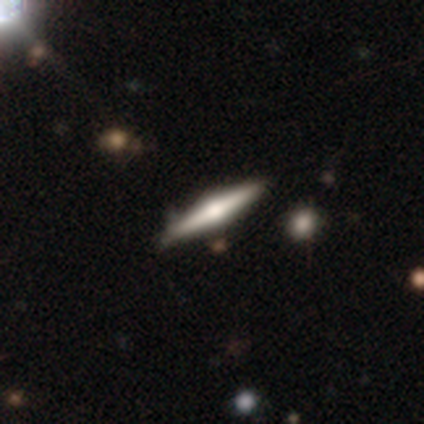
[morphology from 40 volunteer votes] smooth_or_featured: featured or disk (p=0.78) [alt: smooth p=0.23]
disk_edge_on: yes (p=1.00)
edge_on_bulge: rounded (p=0.94) [alt: boxy p=0.06]
merging: none (p=0.70) [alt: minor disturbance p=0.12]